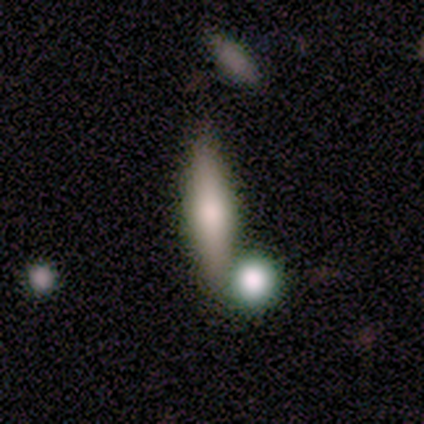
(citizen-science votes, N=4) smooth_or_featured: smooth (p=0.75) [alt: featured or disk p=0.25]
how_rounded: cigar-shaped (p=0.67) [alt: in between p=0.33]
merging: none (p=0.50) [alt: major disturbance p=0.25]